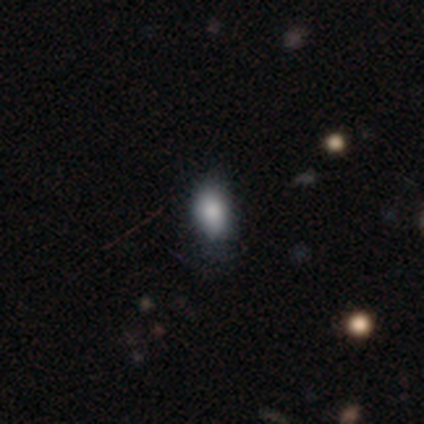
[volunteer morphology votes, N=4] Smooth or featured: smooth — 100%
How rounded: in between — 100%
Merging: none — 75% (minor disturbance — 25%)